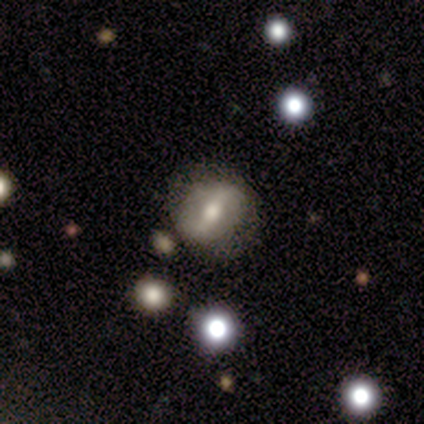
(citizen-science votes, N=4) Volunteers were most divided on "smooth or featured" (2-way tie): smooth: 50%, featured or disk: 50%, star or artifact: 0%. More confident: how rounded — round (100%); merging — none (50%).